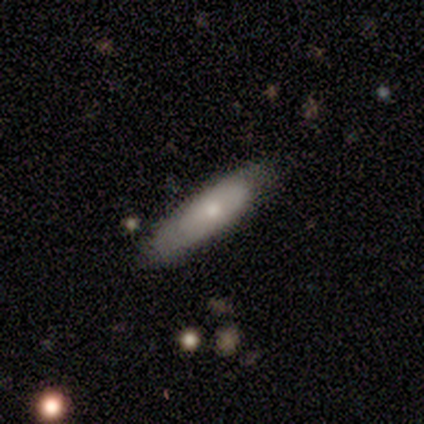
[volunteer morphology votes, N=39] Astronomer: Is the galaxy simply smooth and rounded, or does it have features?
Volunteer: smooth — 72%.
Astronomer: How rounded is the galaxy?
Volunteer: cigar-shaped — 64%.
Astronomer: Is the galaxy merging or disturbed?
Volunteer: none — 77%.